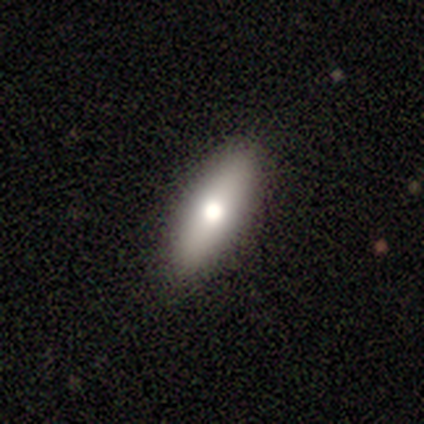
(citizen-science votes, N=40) This is clearly a smooth galaxy (82%). How rounded: possibly in between (52%). Merging: likely none (70%).